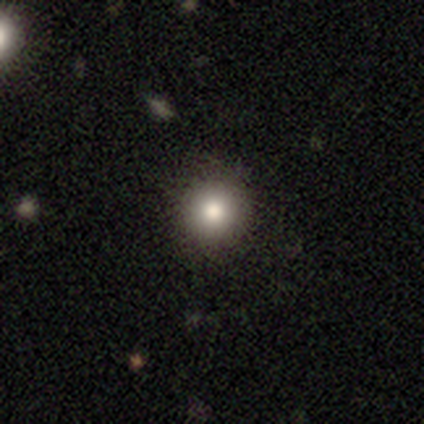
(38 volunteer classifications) A smooth galaxy with no disk features (87%) that is round (94%).

Vote fractions:
- Smooth or featured? smooth: 87% / star or artifact: 8% / featured or disk: 5%
- How rounded? round: 94% / in between: 3% / cigar-shaped: 3%
- Merging? none: 91% / merger: 6% / minor disturbance: 3% / major disturbance: 0%